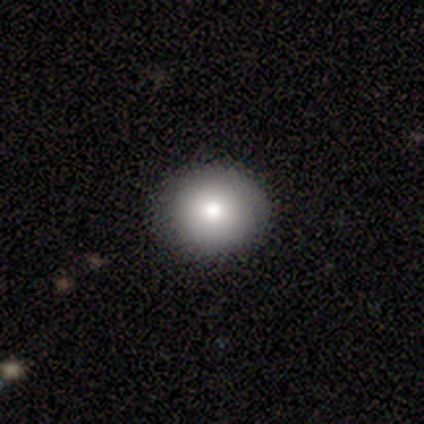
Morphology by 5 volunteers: This appears to be a smooth galaxy with no disk features (60%) that is round (100%). Merging: none (80%).